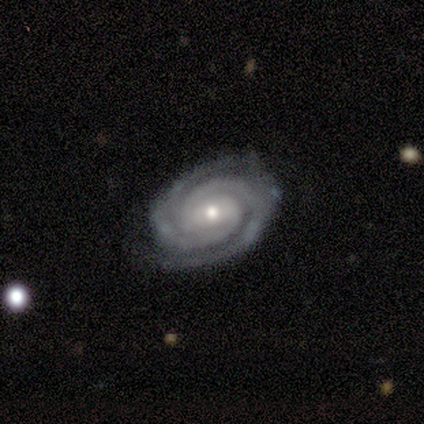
This is clearly a featured or disk galaxy (100%). It is clearly not viewed edge-on (100%). Bar: likely no (60%). Spiral arm pattern: clearly yes (100%). Spiral arm count: clearly 2 (80%). Spiral winding: likely tight (60%). Central bulge: marginally moderate (40%, tied with small). Merging: clearly none (100%).